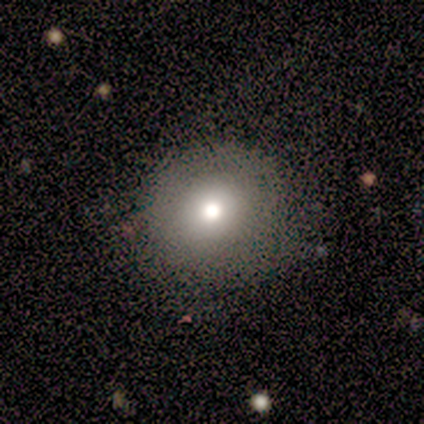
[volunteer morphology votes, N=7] smooth-or-featured: smooth: 100% | featured or disk: 0% | star or artifact: 0%
  how-rounded: round: 86% | in between: 14% | cigar-shaped: 0%
  merging: none: 100% | minor disturbance: 0% | major disturbance: 0% | merger: 0%